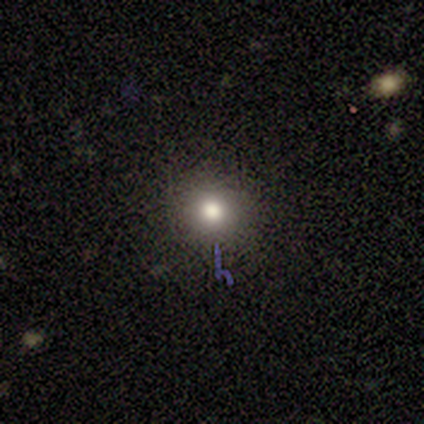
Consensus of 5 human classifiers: A smooth galaxy with no disk features (80%) that is round (100%). Merging: none (100%).